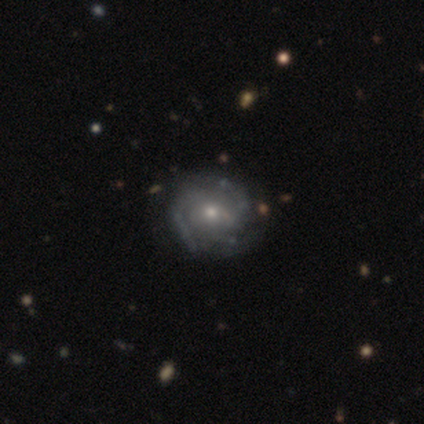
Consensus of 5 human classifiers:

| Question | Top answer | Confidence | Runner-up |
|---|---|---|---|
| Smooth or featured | featured or disk | 80% | smooth (20%) |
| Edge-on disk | no | 100% | — |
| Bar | no | 100% | — |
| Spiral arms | yes | 75% | no (25%) |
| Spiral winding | tight | 67% | loose (33%) |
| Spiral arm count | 3 | 67% | can't tell (33%) |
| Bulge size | small | 75% | moderate (25%) |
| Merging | none | 100% | — |